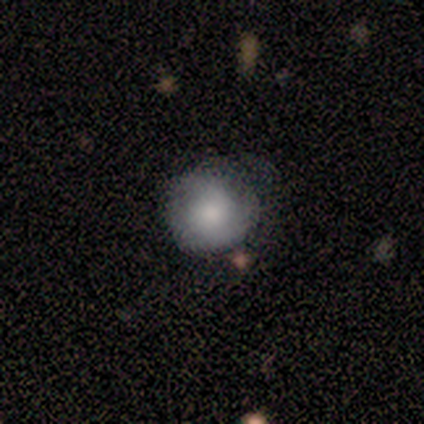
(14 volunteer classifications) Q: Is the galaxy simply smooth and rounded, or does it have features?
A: smooth — 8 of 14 (57%).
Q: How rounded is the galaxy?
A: round — 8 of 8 (100%).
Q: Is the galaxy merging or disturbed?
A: none — 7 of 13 (54%).